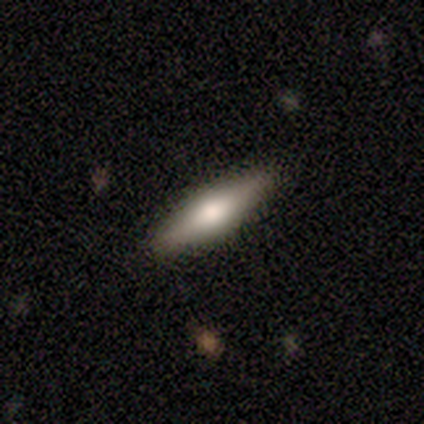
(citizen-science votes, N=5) smooth-or-featured: smooth: 60% | featured or disk: 40% | star or artifact: 0%
  how-rounded: cigar-shaped: 100% | round: 0% | in between: 0%
  merging: none: 100% | minor disturbance: 0% | major disturbance: 0% | merger: 0%